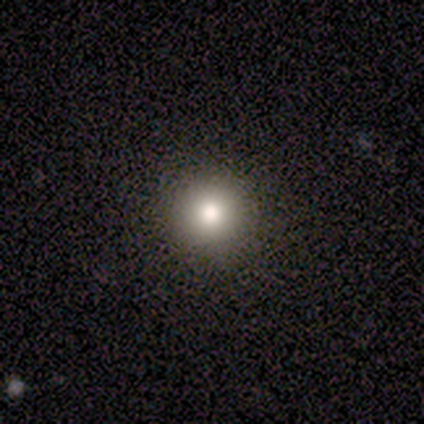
This appears to be a smooth galaxy with no disk features (60%) that is round (100%). Merging: none (100%).